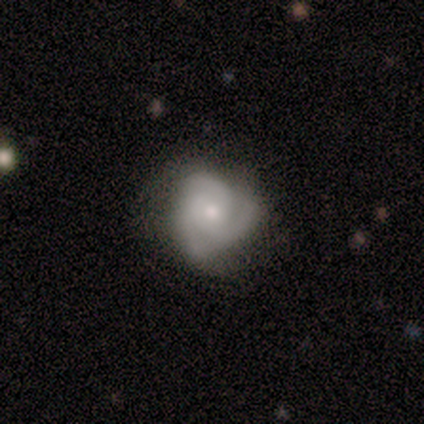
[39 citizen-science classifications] Smooth or featured? featured or disk (67%)
Edge-on disk? no (100%)
Bar? no (88%)
Spiral arms? yes (96%)
Spiral winding? tight (44%)
Spiral arm count? 3 (76%)
Bulge size? small (50%)
Merging? none (54%)